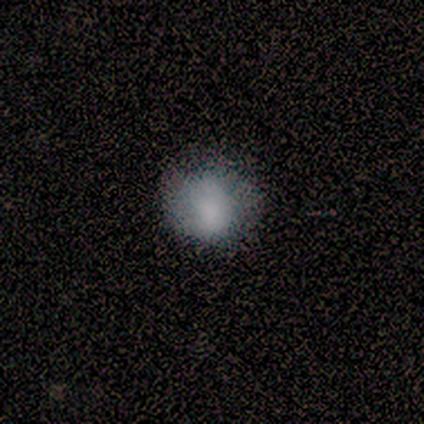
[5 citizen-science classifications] smooth 100%, featured or disk 0%, star or artifact 0%. Down the decision tree: how rounded — round (60%); merging — none (80%).